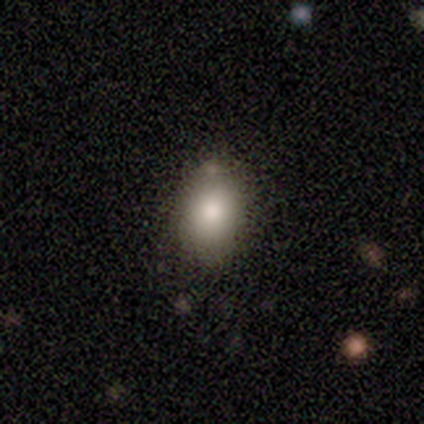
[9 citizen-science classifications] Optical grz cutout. It shows a smooth galaxy with no disk features (89%) that is in between round and cigar-shaped (75%). Merging: none (62%).